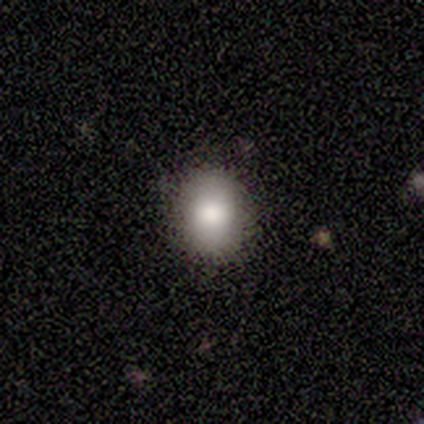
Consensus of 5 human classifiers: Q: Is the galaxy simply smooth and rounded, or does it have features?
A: smooth — 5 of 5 (100%).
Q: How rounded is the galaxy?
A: round — 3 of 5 (60%).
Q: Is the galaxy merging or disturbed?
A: none — 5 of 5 (100%).